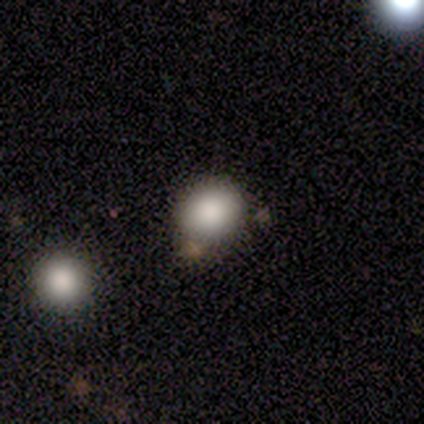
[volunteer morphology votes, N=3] Overall: smooth (67%; featured or disk 33%). How rounded: round (100%). Merging: none (67%; merger 33%).